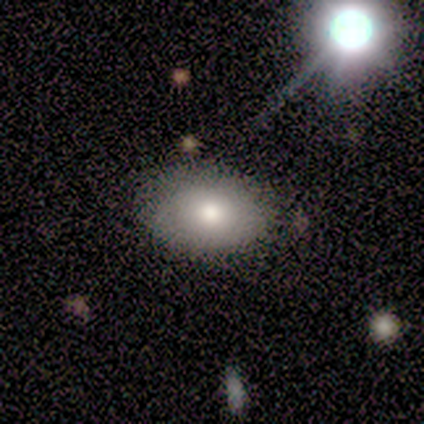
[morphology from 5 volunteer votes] smooth_or_featured: smooth (p=0.80) [alt: featured or disk p=0.20]
how_rounded: in between (p=1.00)
merging: none (p=0.80) [alt: minor disturbance p=0.20]